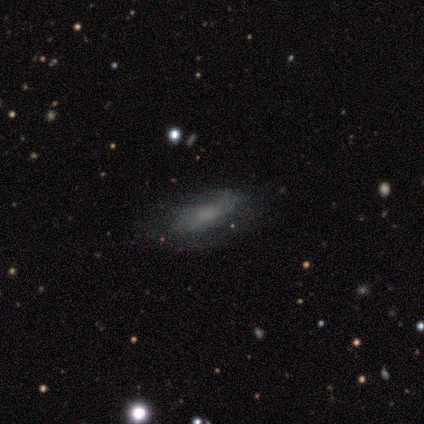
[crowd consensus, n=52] Smooth or featured? featured or disk (50%)
Edge-on disk? no (92%)
Bar? no (75%)
Spiral arms? yes (50%, tied with no)
Spiral winding? medium (42%)
Spiral arm count? can't tell (58%)
Bulge size? moderate (38%)
Merging? none (72%)